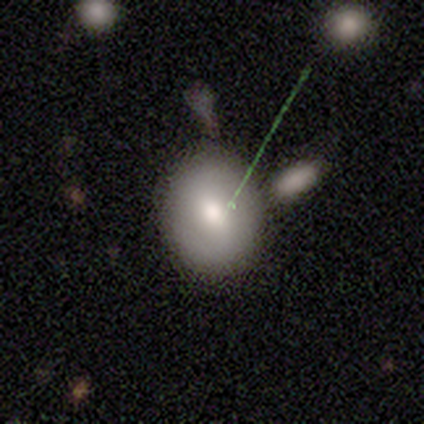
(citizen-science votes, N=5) smooth_or_featured: smooth (p=0.40) [tied with: featured or disk p=0.40]
how_rounded: in between (p=1.00)
merging: none (p=1.00)